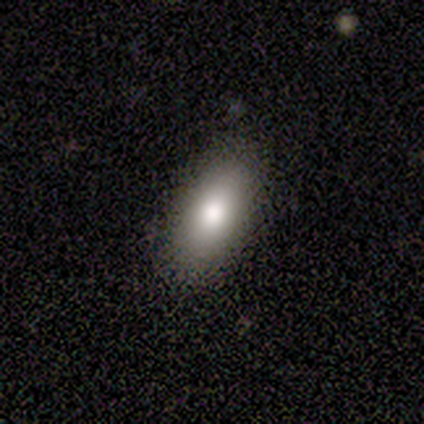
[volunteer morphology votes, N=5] This appears to be a smooth galaxy with no disk features (100%) that is in between round and cigar-shaped (80%). Merging: none (100%).